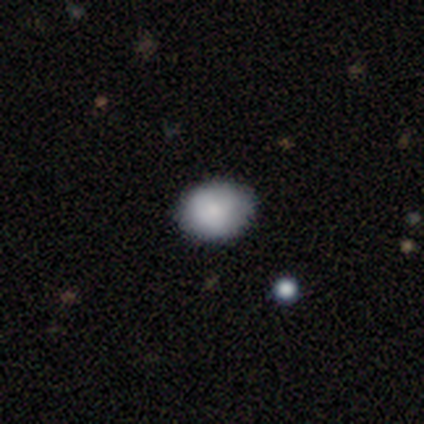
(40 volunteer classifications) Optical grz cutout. It shows a smooth galaxy with no disk features (88%) that is round (69%). Merging: none (95%).